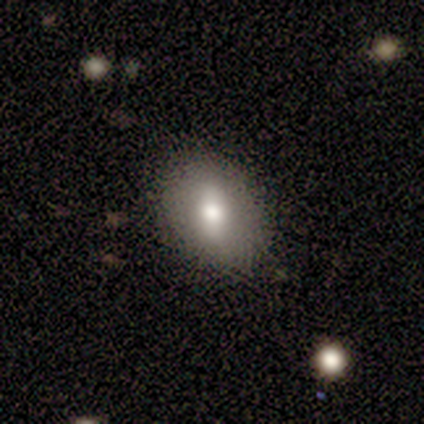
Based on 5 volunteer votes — smooth 60%, featured or disk 40%, star or artifact 0%. Down the decision tree: how rounded — in between (67%); merging — none (60%).